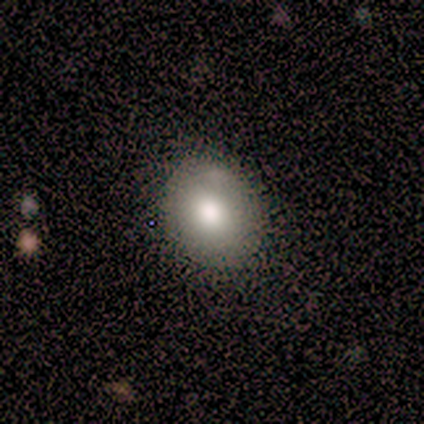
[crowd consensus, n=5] Smooth or featured? smooth (60%)
How rounded? round (100%)
Merging? none (75%)